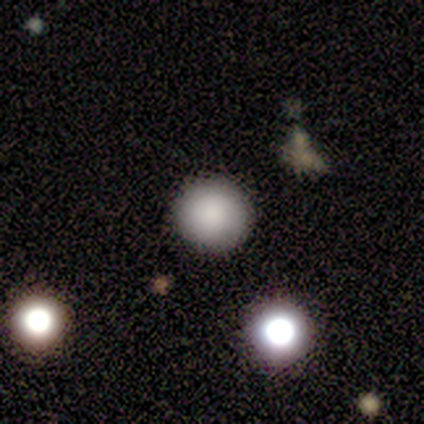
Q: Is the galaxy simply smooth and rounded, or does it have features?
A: smooth — 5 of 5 (100%).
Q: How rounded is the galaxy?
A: round — 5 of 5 (100%).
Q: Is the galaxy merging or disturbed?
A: none — 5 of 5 (100%).